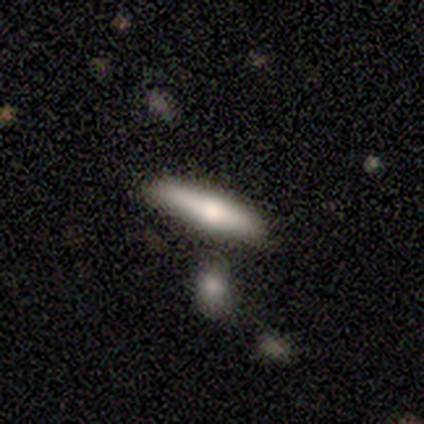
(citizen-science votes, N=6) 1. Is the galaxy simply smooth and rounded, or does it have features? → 50% smooth, 33% featured or disk, 17% star or artifact.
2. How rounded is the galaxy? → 100% cigar-shaped, 0% round, 0% in between.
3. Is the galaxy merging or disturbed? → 100% none, 0% minor disturbance, 0% major disturbance, 0% merger.